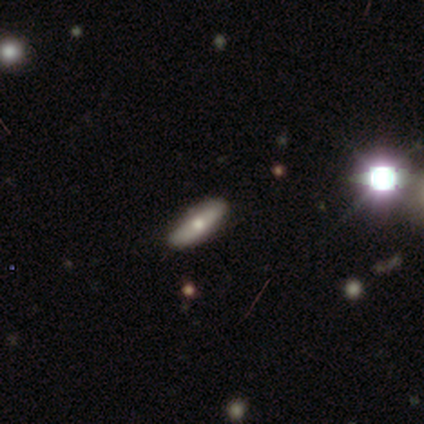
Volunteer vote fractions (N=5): This appears to be a smooth galaxy with no disk features (40%, tied with featured or disk) that is in between round and cigar-shaped (50%, tied with cigar-shaped). Merging: none (75%).